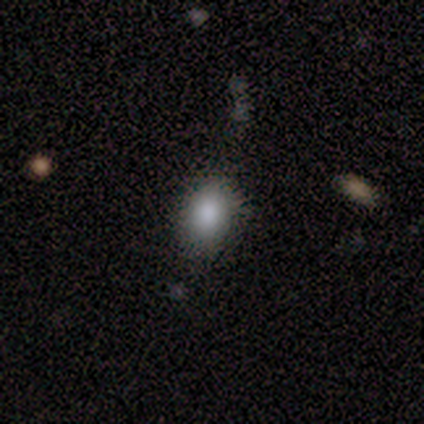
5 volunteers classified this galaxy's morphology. smooth_or_featured: smooth (p=1.00)
how_rounded: in between (p=0.60) [alt: round p=0.20]
merging: none (p=0.80) [alt: major disturbance p=0.20]